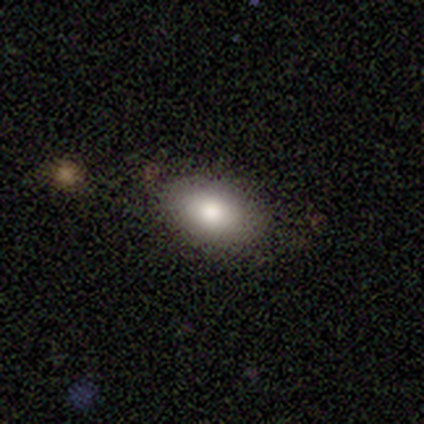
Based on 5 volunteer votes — A smooth galaxy with no disk features (80%) that is in between round and cigar-shaped (100%). Merging: none (80%).